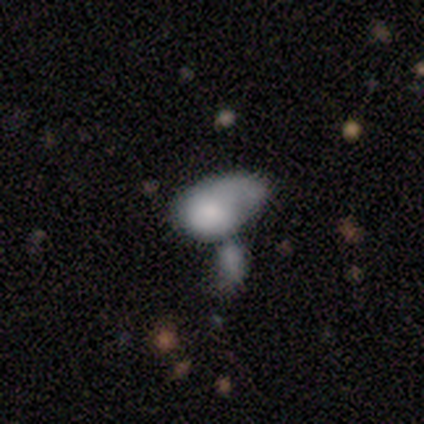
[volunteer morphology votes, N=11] This appears to be a smooth galaxy with no disk features (82%) that is in between round and cigar-shaped (78%). Merging: minor disturbance (45%, tied with merger).